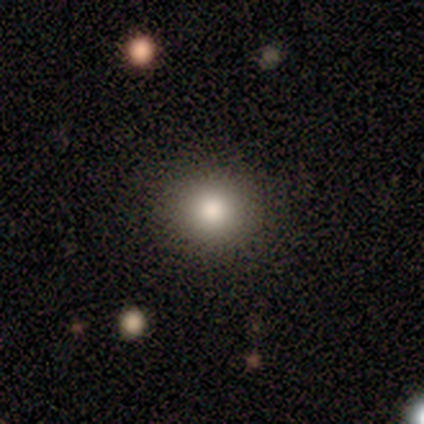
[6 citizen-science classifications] Smooth or featured: smooth — 83% (featured or disk — 17%)
How rounded: round — 100%
Merging: none — 83% (minor disturbance — 17%)